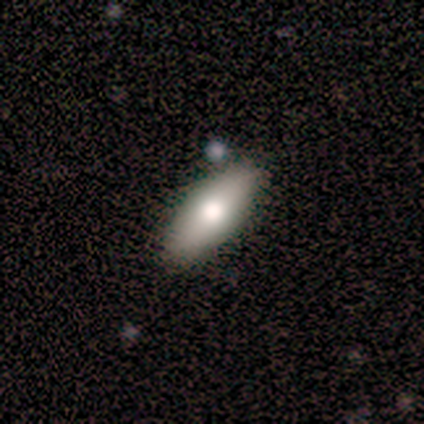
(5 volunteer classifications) smooth_or_featured: smooth (p=0.60) [alt: featured or disk p=0.40]
how_rounded: cigar-shaped (p=0.67) [alt: in between p=0.33]
merging: none (p=0.80) [alt: minor disturbance p=0.20]